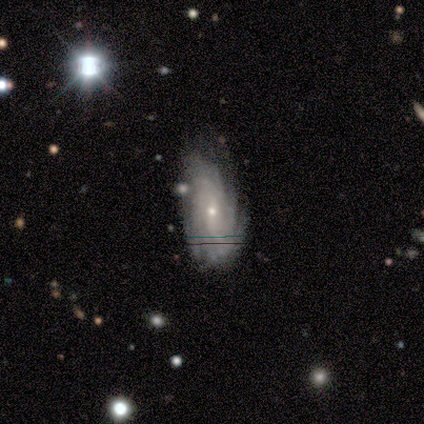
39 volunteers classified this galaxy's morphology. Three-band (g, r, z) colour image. It shows a featured or disk galaxy (79%) with no bar (50%), tight (77%) spiral arms (100%) and a small central bulge (90%). Merging: none (64%).